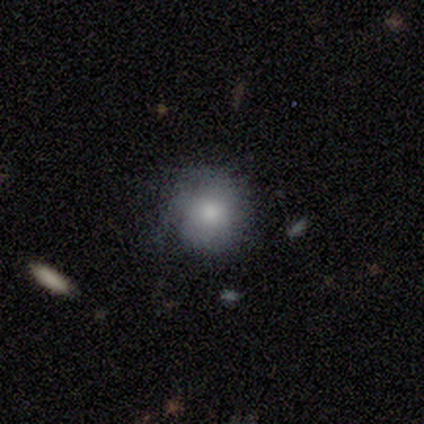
Q: Smooth or featured?
A: smooth (75%); runner-up: featured or disk (25%)
Q: How rounded?
A: round (100%)
Q: Merging?
A: none (75%); runner-up: minor disturbance (25%)